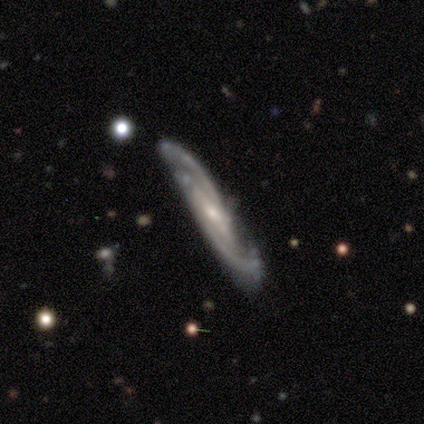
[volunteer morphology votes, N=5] A featured or disk galaxy (80%) with no bar (75%), 2 (75%) medium (75%) spiral arms (100%) and a small central bulge (100%). Merging: none (60%).